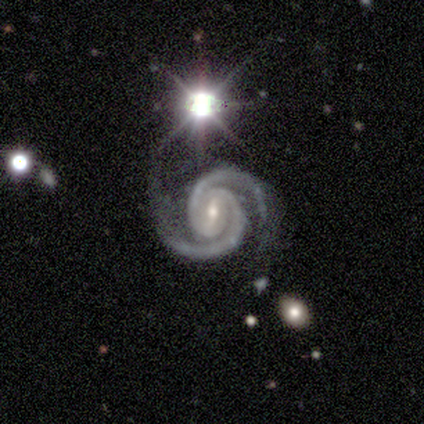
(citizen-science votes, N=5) A featured or disk galaxy (100%) with a weak bar (80%), 2 (100%) tight (80%) spiral arms (100%) and a moderate central bulge (80%).

Vote fractions:
- Smooth or featured? featured or disk: 100% / smooth: 0% / star or artifact: 0%
- Edge-on disk? no: 100% / yes: 0%
- Bar? weak: 80% / no: 20% / strong: 0%
- Spiral arms? yes: 100% / no: 0%
- Spiral winding? tight: 80% / medium: 20% / loose: 0%
- Spiral arm count? 2: 100% / 1: 0% / 3: 0% / 4: 0% / more than 4: 0% / can't tell: 0%
- Bulge size? moderate: 80% / small: 20% / dominant: 0% / large: 0% / none: 0%
- Merging? none: 80% / merger: 20% / minor disturbance: 0% / major disturbance: 0%